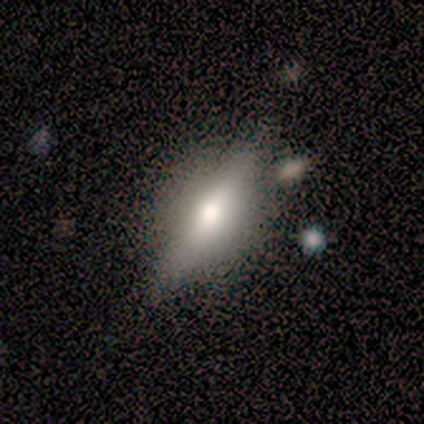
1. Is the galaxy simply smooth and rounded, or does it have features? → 100% featured or disk, 0% smooth, 0% star or artifact.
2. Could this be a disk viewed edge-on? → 60% yes, 40% no.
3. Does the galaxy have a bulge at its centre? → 67% rounded, 33% none, 0% boxy.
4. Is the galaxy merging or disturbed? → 40% none, 20% minor disturbance, 20% major disturbance, 20% merger.